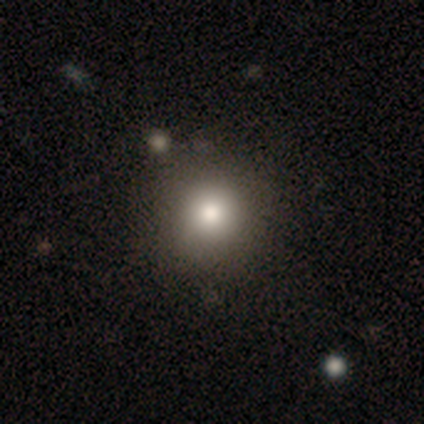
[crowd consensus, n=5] Smooth or featured?
  - star or artifact: 60% *
  - smooth: 40%
  - featured or disk: 0%